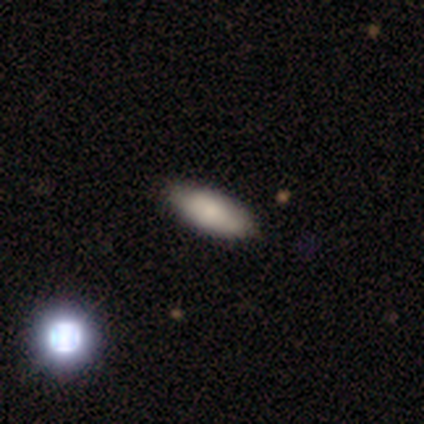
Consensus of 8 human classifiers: Q: Smooth or featured?
A: smooth (75%); runner-up: featured or disk (12%)
Q: How rounded?
A: in between (83%); runner-up: cigar-shaped (17%)
Q: Merging?
A: none (86%); runner-up: major disturbance (14%)